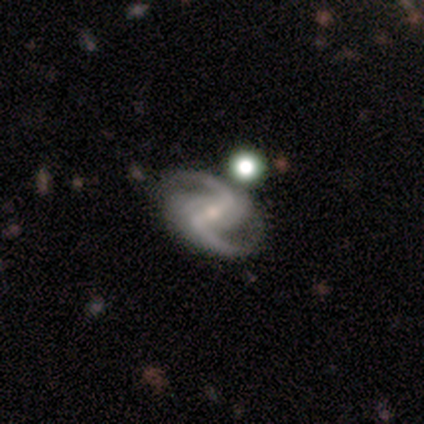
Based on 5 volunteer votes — A featured or disk galaxy (100%) with a strong bar (100%), 2 (100%) loose (60%) spiral arms (100%) and a small central bulge (80%).

Vote fractions:
- Smooth or featured? featured or disk: 100% / smooth: 0% / star or artifact: 0%
- Edge-on disk? no: 100% / yes: 0%
- Bar? strong: 100% / weak: 0% / no: 0%
- Spiral arms? yes: 100% / no: 0%
- Spiral winding? loose: 60% / medium: 40% / tight: 0%
- Spiral arm count? 2: 100% / 1: 0% / 3: 0% / 4: 0% / more than 4: 0% / can't tell: 0%
- Bulge size? small: 80% / moderate: 20% / dominant: 0% / large: 0% / none: 0%
- Merging? none: 100% / minor disturbance: 0% / major disturbance: 0% / merger: 0%